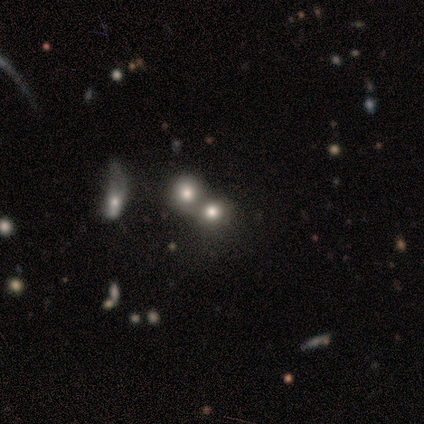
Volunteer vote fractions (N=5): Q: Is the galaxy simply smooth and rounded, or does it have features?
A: smooth — 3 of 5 (60%).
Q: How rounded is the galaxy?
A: round — 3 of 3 (100%).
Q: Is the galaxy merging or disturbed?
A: merger — 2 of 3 (67%).